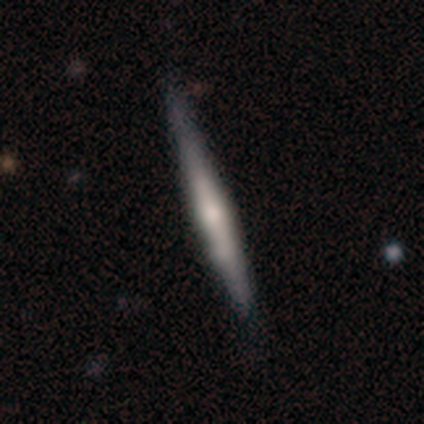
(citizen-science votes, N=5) Volunteers were most divided on "edge-on bulge": rounded: 75%, none: 25%, boxy: 0%. More confident: edge-on disk — yes (100%); merging — none (100%); smooth or featured — featured or disk (80%).